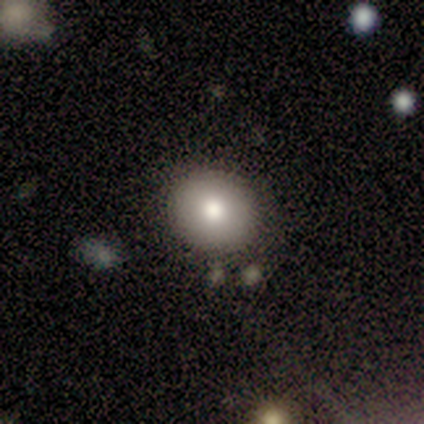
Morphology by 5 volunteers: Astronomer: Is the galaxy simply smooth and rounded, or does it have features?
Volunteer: smooth — 60%.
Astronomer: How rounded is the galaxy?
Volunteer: round — 100%.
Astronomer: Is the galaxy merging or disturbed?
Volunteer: none — 100%.